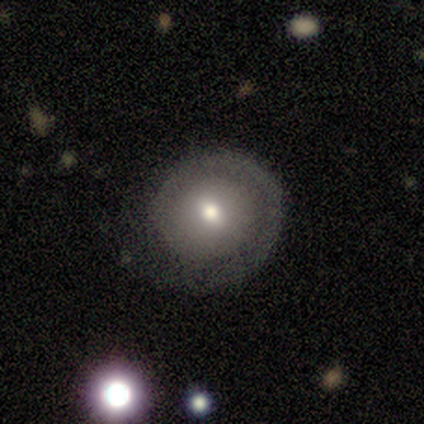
smooth_or_featured: featured or disk (p=0.56) [alt: smooth p=0.35]
disk_edge_on: no (p=1.00)
bar: no (p=0.63) [alt: weak p=0.32]
has_spiral_arms: yes (p=0.74) [alt: no p=0.26]
spiral_winding: tight (p=0.57) [alt: loose p=0.29]
spiral_arm_count: 1 (p=0.93) [alt: 2 p=0.07]
bulge_size: moderate (p=0.47) [alt: small p=0.37]
merging: none (p=0.74) [alt: minor disturbance p=0.16]